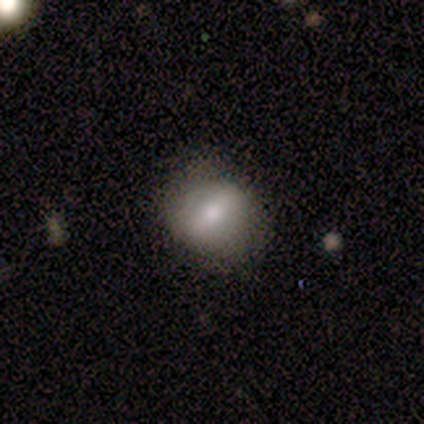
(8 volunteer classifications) Volunteers were most divided on "smooth or featured": smooth: 62%, featured or disk: 25%, star or artifact: 12%. More confident: merging — none (100%); how rounded — round (80%).